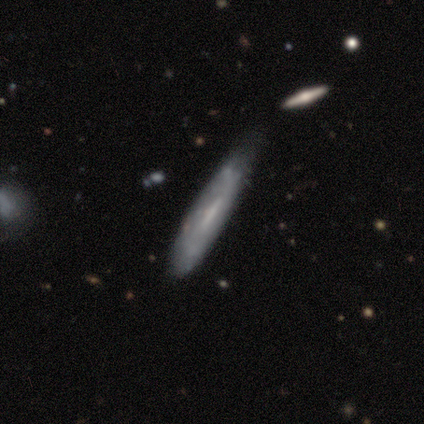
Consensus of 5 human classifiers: Smooth or featured: smooth — 80% (star or artifact — 20%)
How rounded: cigar-shaped — 75% (in between — 25%)
Merging: none — 75% (minor disturbance — 25%)